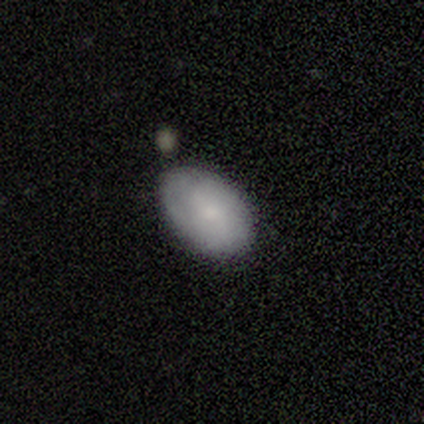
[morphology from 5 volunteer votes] Volunteers were most divided on "how rounded": in between: 75%, round: 25%, cigar-shaped: 0%. More confident: merging — none (100%); smooth or featured — smooth (80%).